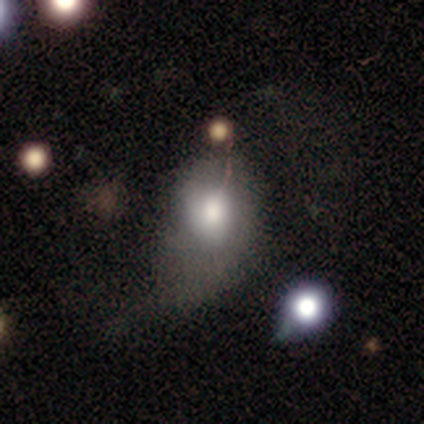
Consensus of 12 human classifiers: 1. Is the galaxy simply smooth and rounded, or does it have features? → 75% smooth, 17% star or artifact, 8% featured or disk.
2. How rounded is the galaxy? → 89% in between, 11% round, 0% cigar-shaped.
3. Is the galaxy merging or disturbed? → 50% minor disturbance, 40% major disturbance, 10% none, 0% merger.